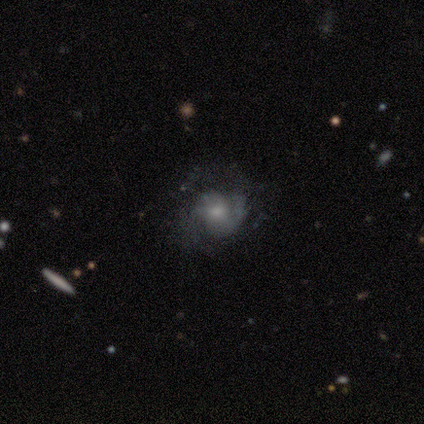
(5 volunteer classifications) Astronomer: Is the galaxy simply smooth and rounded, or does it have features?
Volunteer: smooth — 60% (runner-up: featured or disk, 40%).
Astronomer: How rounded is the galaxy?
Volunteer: round — 33%, tied with in between and cigar-shaped at 33%.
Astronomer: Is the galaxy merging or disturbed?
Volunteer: none — 60%.